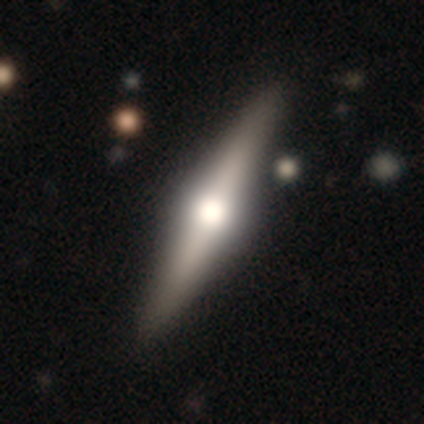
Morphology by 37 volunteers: featured or disk 86%, smooth 11%, star or artifact 3%. Down the decision tree: edge-on disk — yes (100%); edge-on bulge — rounded (94%); merging — none (89%).